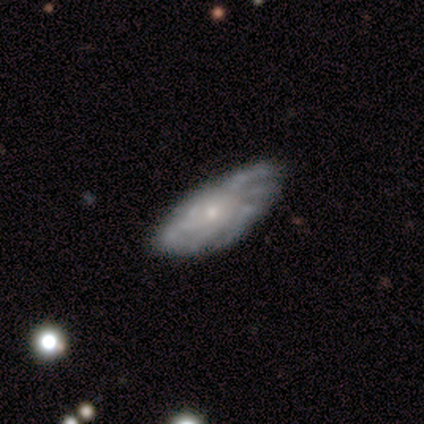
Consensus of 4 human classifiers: Smooth or featured?
  - featured or disk: 75% *
  - smooth: 25%
  - star or artifact: 0%
Edge-on disk?
  - no: 67% *
  - yes: 33%
Bar?
  - weak: 50% * (tied)
  - no: 50% * (tied)
  - strong: 0%
Spiral arms?
  - yes: 100% *
  - no: 0%
Spiral winding?
  - tight: 50% * (tied)
  - medium: 50% * (tied)
  - loose: 0%
Spiral arm count?
  - more than 4: 50% * (tied)
  - can't tell: 50% * (tied)
  - 1: 0%
  - 2: 0%
  - 3: 0%
  - 4: 0%
Bulge size?
  - small: 100% *
  - dominant: 0%
  - large: 0%
  - moderate: 0%
  - none: 0%
Merging?
  - none: 100% *
  - minor disturbance: 0%
  - major disturbance: 0%
  - merger: 0%